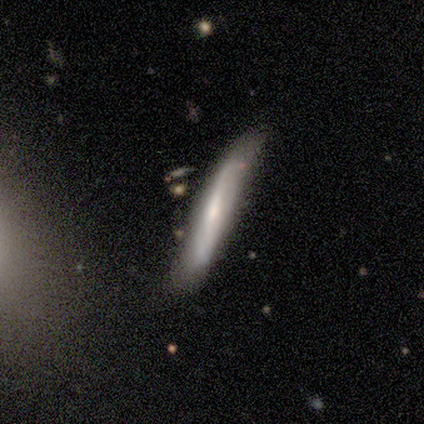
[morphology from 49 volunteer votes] This appears to be a featured or disk galaxy (69%) viewed edge-on (76%) with a rounded central bulge (46%). Merging: none (58%).